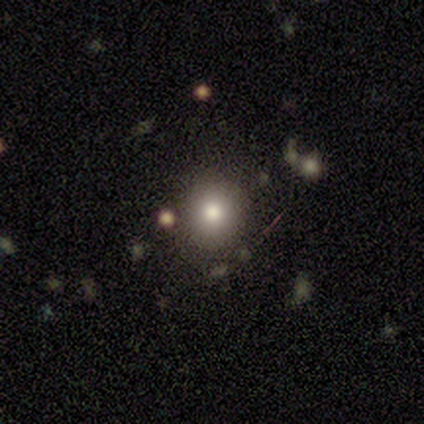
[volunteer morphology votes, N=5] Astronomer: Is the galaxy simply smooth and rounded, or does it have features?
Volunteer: smooth — 60% (runner-up: star or artifact, 40%).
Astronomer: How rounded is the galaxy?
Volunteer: round — 100%.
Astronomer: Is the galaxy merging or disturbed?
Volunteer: none — 100%.